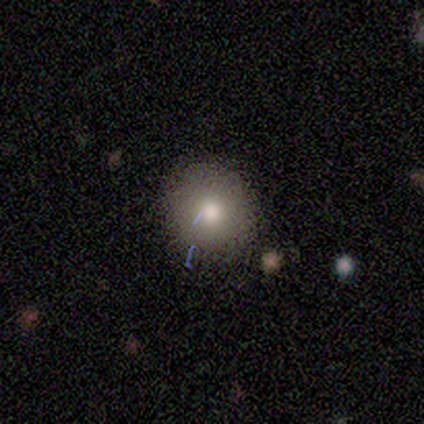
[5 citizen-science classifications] Smooth or featured?
  - smooth: 100% *
  - featured or disk: 0%
  - star or artifact: 0%
How rounded?
  - round: 100% *
  - in between: 0%
  - cigar-shaped: 0%
Merging?
  - none: 80% *
  - minor disturbance: 20%
  - major disturbance: 0%
  - merger: 0%